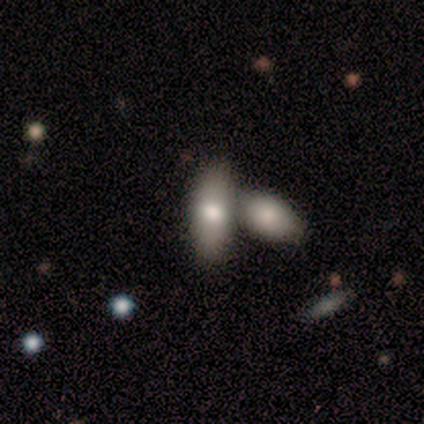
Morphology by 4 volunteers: Smooth or featured? smooth (100%)
How rounded? in between (100%)
Merging? merger (75%)